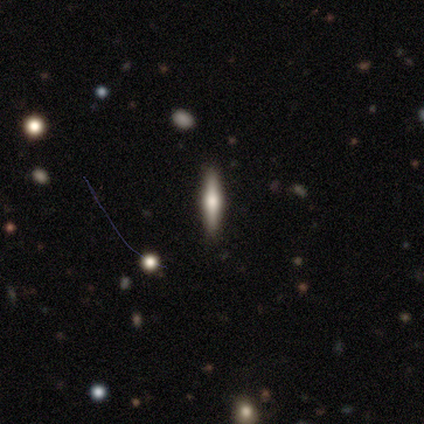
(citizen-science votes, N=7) This is possibly a featured or disk galaxy (57%). It is clearly viewed edge-on (100%). Edge-on bulge: clearly rounded (100%). Merging: clearly none (83%).